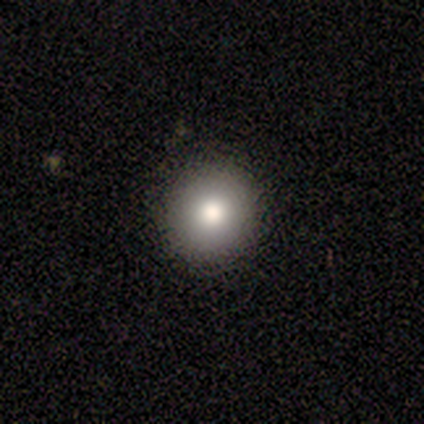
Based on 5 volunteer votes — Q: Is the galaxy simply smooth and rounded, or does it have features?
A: smooth — 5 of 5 (100%).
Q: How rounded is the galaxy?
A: round — 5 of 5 (100%).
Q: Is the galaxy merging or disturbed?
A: none — 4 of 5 (80%).